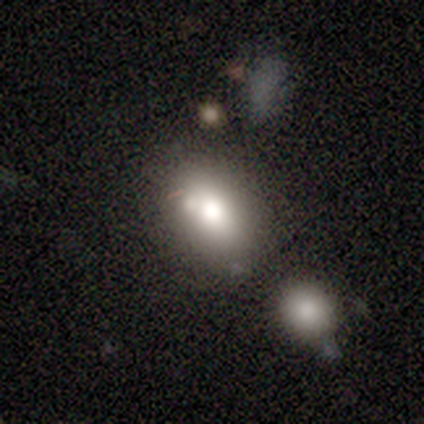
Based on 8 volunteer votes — Q: Smooth or featured?
A: smooth (88%); runner-up: featured or disk (12%)
Q: How rounded?
A: in between (86%); runner-up: round (14%)
Q: Merging?
A: none (62%); runner-up: merger (38%)